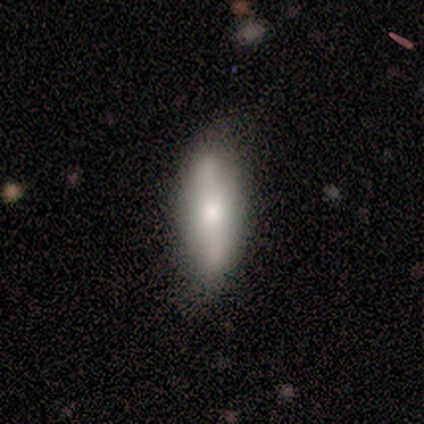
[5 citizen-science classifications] Morphology: type=smooth (40%, tied with featured or disk); roundness=in between (100%); merging=none (50%, tied with minor disturbance).